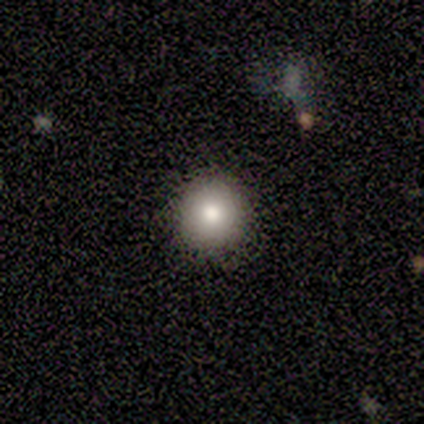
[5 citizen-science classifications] Morphology: type=smooth (80%); roundness=round (100%); merging=none (75%).